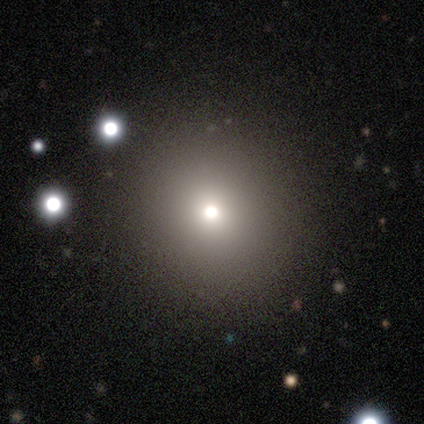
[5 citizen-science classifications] Morphology: type=star or artifact (60%).